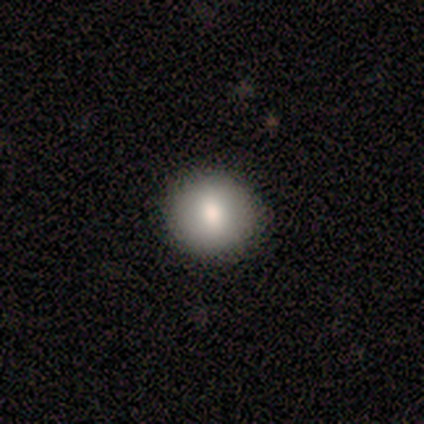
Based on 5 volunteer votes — smooth 80%, featured or disk 20%, star or artifact 0%. Down the decision tree: how rounded — round (75%); merging — none (100%).